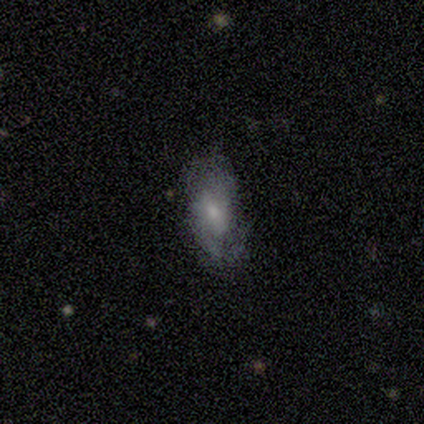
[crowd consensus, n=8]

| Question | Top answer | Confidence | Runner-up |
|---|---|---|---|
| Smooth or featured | featured or disk | 38% | tied: star or artifact (38%) |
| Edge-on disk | no | 100% | — |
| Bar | no | 100% | — |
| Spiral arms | yes | 100% | — |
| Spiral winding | medium | 67% | loose (33%) |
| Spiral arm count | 2 | 67% | can't tell (33%) |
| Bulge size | small | 67% | dominant (33%) |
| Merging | none | 80% | major disturbance (20%) |